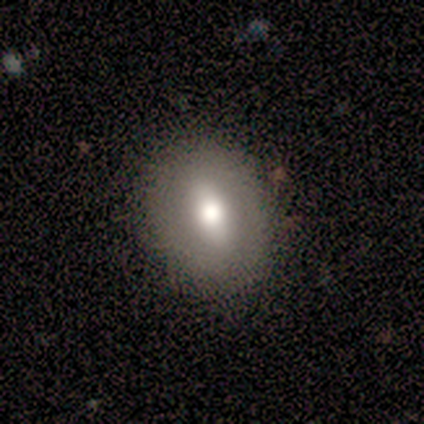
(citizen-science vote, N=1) Smooth or featured? 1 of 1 (100%) said smooth. How rounded? 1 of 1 (100%) said in between. Merging? 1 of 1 (100%) said none.